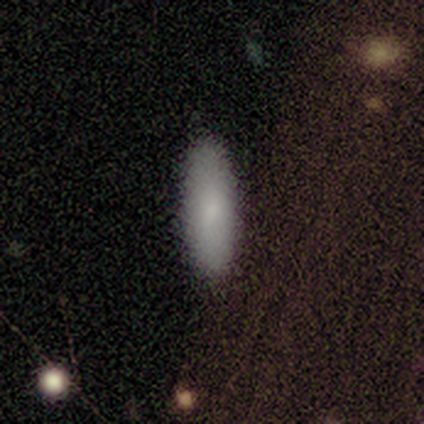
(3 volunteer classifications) Q: Smooth or featured?
A: smooth (100%)
Q: How rounded?
A: in between (67%); runner-up: cigar-shaped (33%)
Q: Merging?
A: none (67%); runner-up: major disturbance (33%)